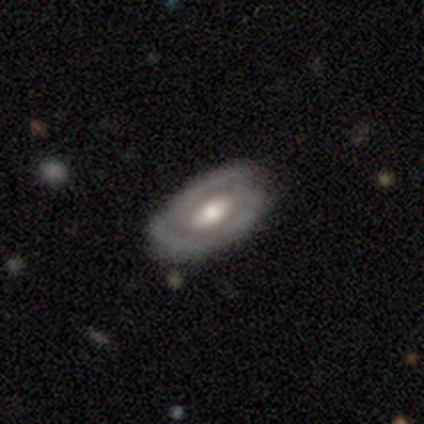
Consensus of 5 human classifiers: Smooth or featured: featured or disk — 100%
Edge-on disk: no — 100%
Bar: weak — 60% (strong — 20%)
Spiral arms: yes — 80% (no — 20%)
Spiral winding: tight — 50% (tied with medium — 50%)
Spiral arm count: 2 — 75% (can't tell — 25%)
Bulge size: moderate — 100%
Merging: minor disturbance — 60% (none — 40%)